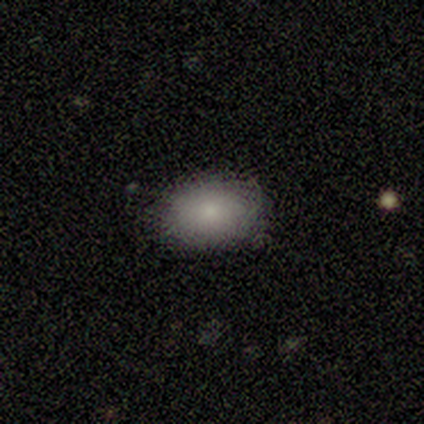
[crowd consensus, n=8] smooth 100%, featured or disk 0%, star or artifact 0%. Down the decision tree: how rounded — in between (75%); merging — none (100%).